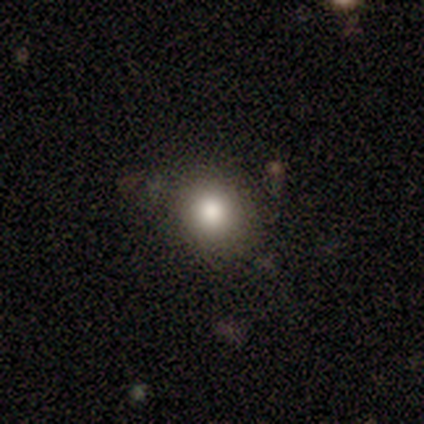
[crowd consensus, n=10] smooth-or-featured: smooth: 90% | featured or disk: 10% | star or artifact: 0%
  how-rounded: round: 89% | in between: 11% | cigar-shaped: 0%
  merging: none: 80% | minor disturbance: 20% | major disturbance: 0% | merger: 0%